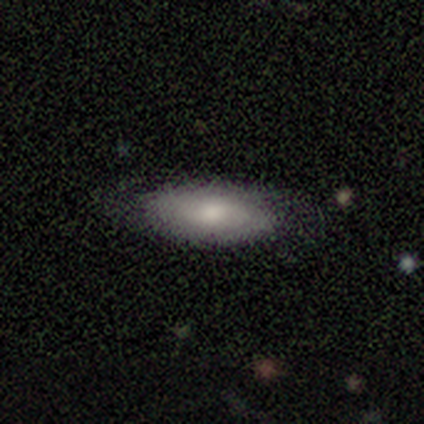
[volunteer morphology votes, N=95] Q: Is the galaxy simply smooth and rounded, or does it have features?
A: smooth — 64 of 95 (67%).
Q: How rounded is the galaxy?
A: in between — 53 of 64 (83%).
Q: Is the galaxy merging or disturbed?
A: none — 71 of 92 (77%).